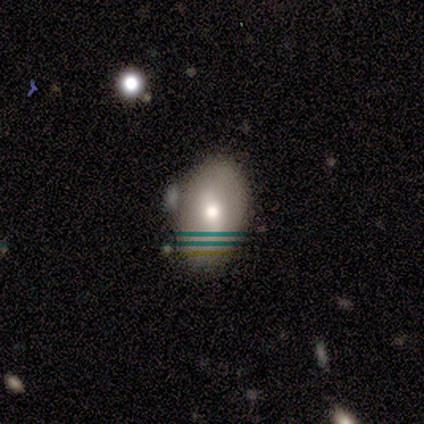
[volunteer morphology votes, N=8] Smooth or featured? 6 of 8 (75%) said smooth. How rounded? 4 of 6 (67%) said in between. Merging? 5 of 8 (62%) said none.